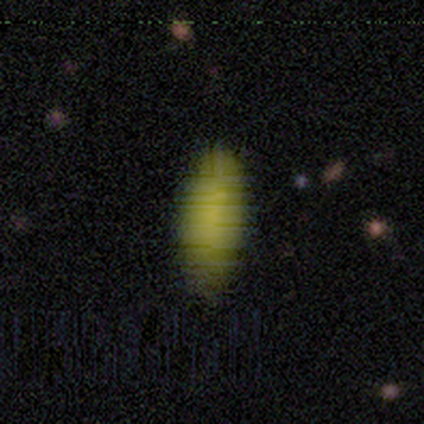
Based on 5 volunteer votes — smooth-or-featured: smooth: 100% | featured or disk: 0% | star or artifact: 0%
  how-rounded: cigar-shaped: 60% | in between: 40% | round: 0%
  merging: none: 60% | major disturbance: 40% | minor disturbance: 0% | merger: 0%